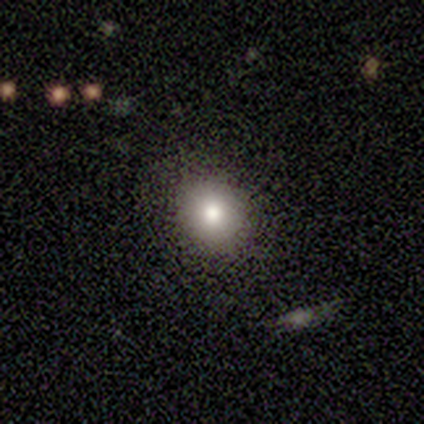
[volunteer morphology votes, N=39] This appears to be a smooth galaxy with no disk features (72%) that is round (68%). Merging: none (88%).